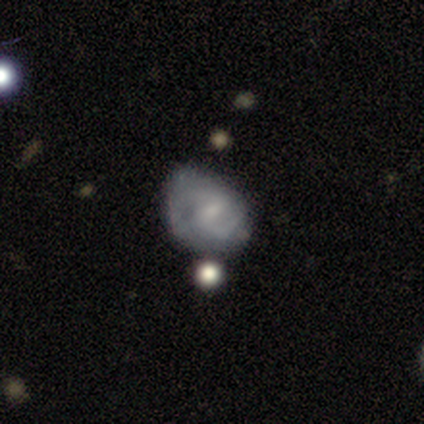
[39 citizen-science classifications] smooth-or-featured: featured or disk: 77% | smooth: 21% | star or artifact: 3%
  disk-edge-on: no: 97% | yes: 3%
    bar: weak: 52% | no: 41% | strong: 7%
    has-spiral-arms: yes: 72% | no: 28%
      spiral-winding: medium: 62% | tight: 19% | loose: 19%
      spiral-arm-count: 2: 76% | can't tell: 19% | 4: 5% | 1: 0% | 3: 0% | more than 4: 0%
    bulge-size: small: 69% | moderate: 21% | none: 10% | dominant: 0% | large: 0%
  merging: minor disturbance: 45% | none: 37% | merger: 11% | major disturbance: 8%